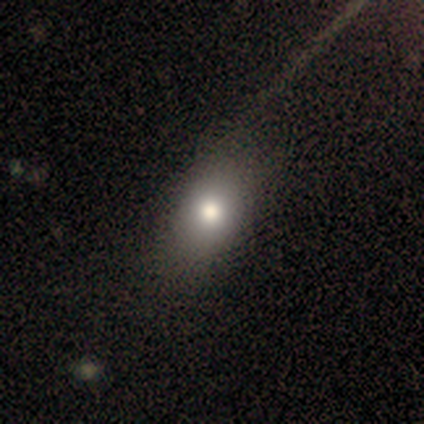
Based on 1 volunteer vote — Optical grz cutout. It shows a featured or disk galaxy (100%) with no bar (100%), no spiral arms (100%) and a moderate central bulge (100%). Merging: minor disturbance (100%).